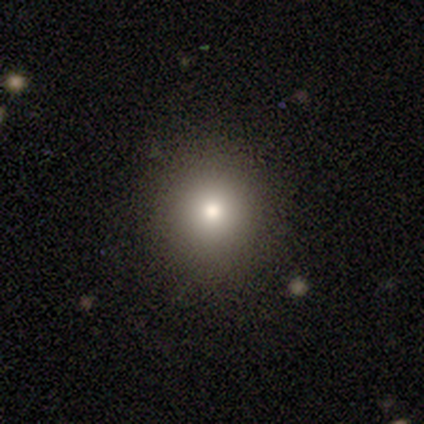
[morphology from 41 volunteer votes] A smooth galaxy with no disk features (83%) that is round (91%).

Vote fractions:
- Smooth or featured? smooth: 83% / star or artifact: 12% / featured or disk: 5%
- How rounded? round: 91% / in between: 6% / cigar-shaped: 3%
- Merging? none: 97% / minor disturbance: 3% / major disturbance: 0% / merger: 0%